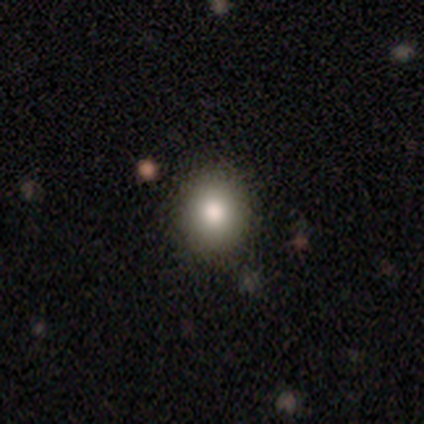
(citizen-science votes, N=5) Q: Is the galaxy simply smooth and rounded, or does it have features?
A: smooth — 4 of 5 (80%).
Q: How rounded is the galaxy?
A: round — 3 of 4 (75%).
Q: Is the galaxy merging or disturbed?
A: none — 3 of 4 (75%).